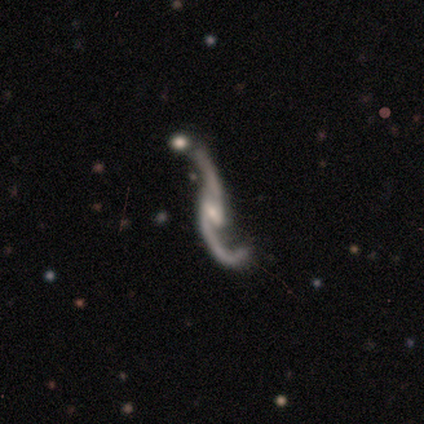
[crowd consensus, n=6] A featured or disk galaxy (100%) with a weak bar (60%), 2 (100%) loose (100%) spiral arms (100%) and a small central bulge (80%).

Vote fractions:
- Smooth or featured? featured or disk: 100% / smooth: 0% / star or artifact: 0%
- Edge-on disk? no: 83% / yes: 17%
- Bar? weak: 60% / no: 40% / strong: 0%
- Spiral arms? yes: 100% / no: 0%
- Spiral winding? loose: 100% / tight: 0% / medium: 0%
- Spiral arm count? 2: 100% / 1: 0% / 3: 0% / 4: 0% / more than 4: 0% / can't tell: 0%
- Bulge size? small: 80% / moderate: 20% / dominant: 0% / large: 0% / none: 0%
- Merging? none: 67% / merger: 33% / minor disturbance: 0% / major disturbance: 0%